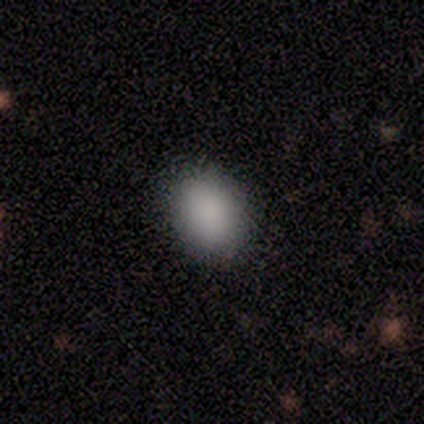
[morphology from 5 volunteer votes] smooth-or-featured: smooth: 100% | featured or disk: 0% | star or artifact: 0%
  how-rounded: in between: 100% | round: 0% | cigar-shaped: 0%
  merging: none: 80% | minor disturbance: 20% | major disturbance: 0% | merger: 0%